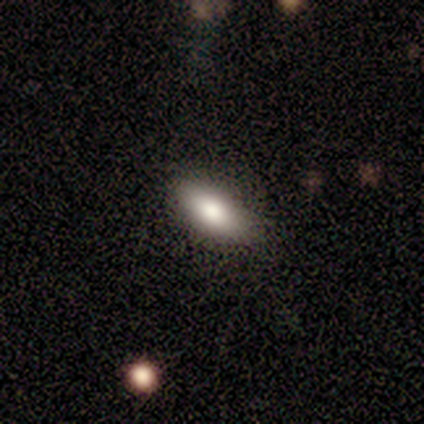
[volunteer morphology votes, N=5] Smooth or featured?
  - smooth: 80% *
  - featured or disk: 20%
  - star or artifact: 0%
How rounded?
  - in between: 100% *
  - round: 0%
  - cigar-shaped: 0%
Merging?
  - none: 100% *
  - minor disturbance: 0%
  - major disturbance: 0%
  - merger: 0%